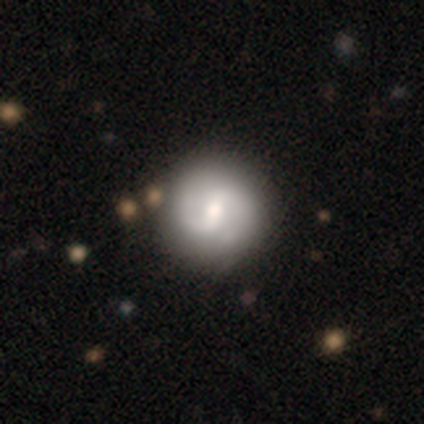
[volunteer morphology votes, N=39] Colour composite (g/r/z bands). It shows a featured or disk galaxy (79%) with a weak bar (45%), 2 (90%) medium (57%) spiral arms (97%) and a moderate central bulge (68%). Merging: none (62%).